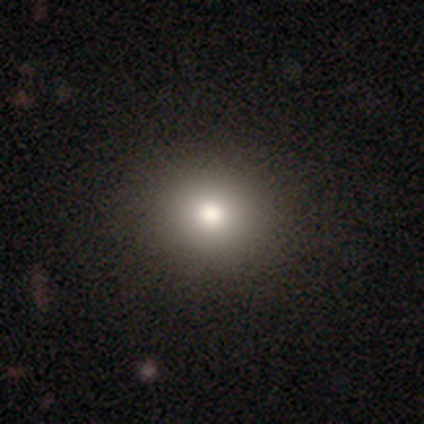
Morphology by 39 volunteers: This appears to be a smooth galaxy with no disk features (72%) that is round (82%). Merging: none (93%).